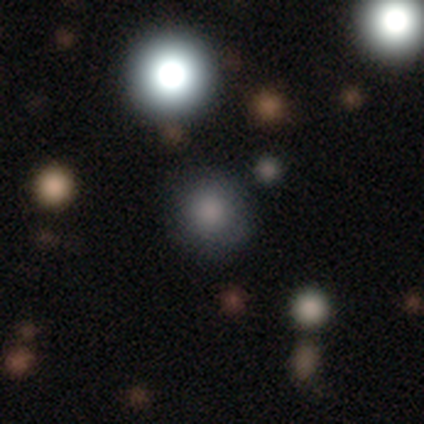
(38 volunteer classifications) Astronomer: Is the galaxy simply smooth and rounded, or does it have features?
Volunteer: smooth — 66%.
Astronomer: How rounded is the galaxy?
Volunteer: round — 92%.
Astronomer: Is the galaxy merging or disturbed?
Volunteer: none — 93%.